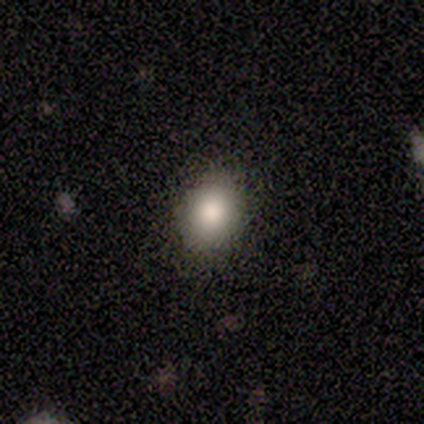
Smooth or featured? 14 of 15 (93%) said smooth. How rounded? 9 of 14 (64%) said round. Merging? 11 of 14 (79%) said none.